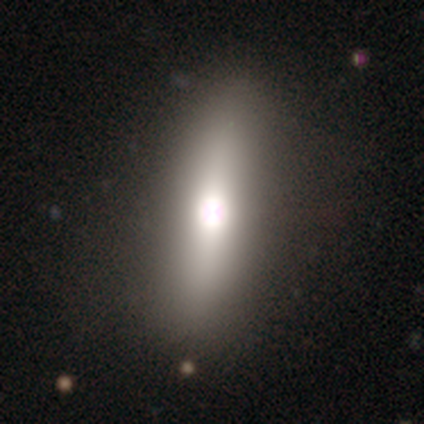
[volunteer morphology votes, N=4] Volunteers were most divided on "smooth or featured": featured or disk: 50%, smooth: 25%, star or artifact: 25%. More confident: edge-on disk — yes (100%); edge-on bulge — rounded (100%); merging — none (100%).